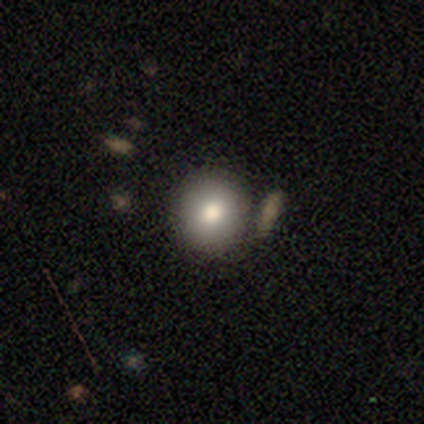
smooth-or-featured: smooth: 60% | featured or disk: 20% | star or artifact: 20%
  how-rounded: round: 100% | in between: 0% | cigar-shaped: 0%
  merging: none: 100% | minor disturbance: 0% | major disturbance: 0% | merger: 0%